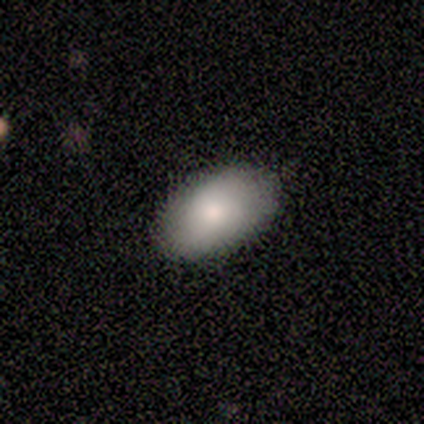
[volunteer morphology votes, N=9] Smooth or featured? smooth (56%)
How rounded? in between (100%)
Merging? none (100%)